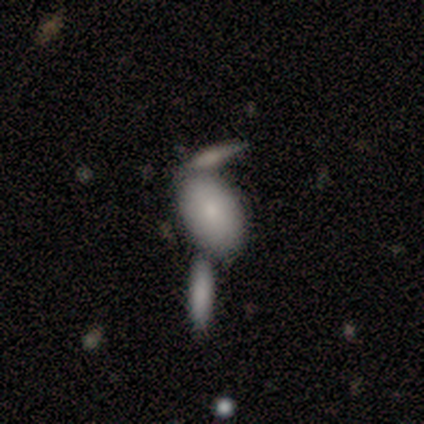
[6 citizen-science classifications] Q: Smooth or featured?
A: smooth (67%); runner-up: featured or disk (33%)
Q: How rounded?
A: in between (75%); runner-up: round (25%)
Q: Merging?
A: none (50%); runner-up: merger (33%)